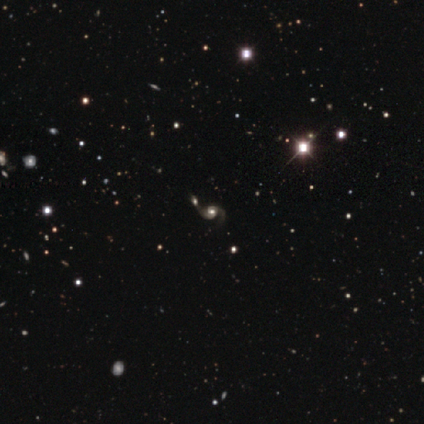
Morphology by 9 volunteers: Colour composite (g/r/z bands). It shows a featured or disk galaxy (67%) with a weak bar (50%), 2 (100%) medium (67%) spiral arms (100%) and a large central bulge (50%, tied with moderate). Merging: none (86%).